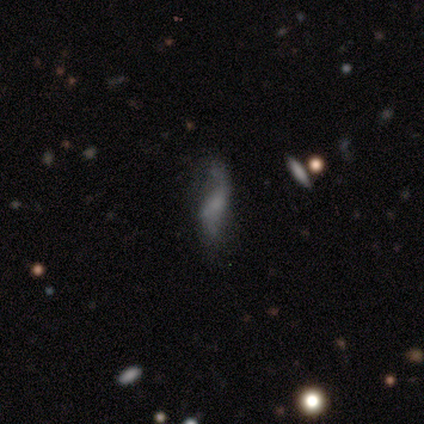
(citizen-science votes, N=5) Smooth or featured: smooth — 60% (featured or disk — 40%)
How rounded: in between — 100%
Merging: none — 60% (minor disturbance — 20%)